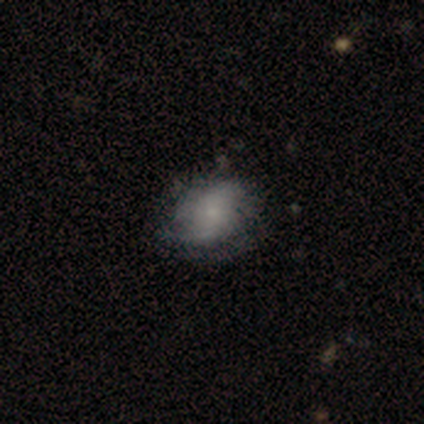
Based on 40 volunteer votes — smooth-or-featured: featured or disk: 65% | smooth: 28% | star or artifact: 8%
  disk-edge-on: no: 100% | yes: 0%
    bar: no: 77% | weak: 23% | strong: 0%
    has-spiral-arms: yes: 85% | no: 15%
      spiral-winding: loose: 36% | tight: 32% | medium: 32%
      spiral-arm-count: can't tell: 55% | 2: 27% | 3: 9% | 1: 5% | 4: 5% | more than 4: 0%
    bulge-size: small: 50% | moderate: 23% | none: 23% | large: 4% | dominant: 0%
  merging: none: 43% (tied) | minor disturbance: 43% (tied) | major disturbance: 11% | merger: 3%